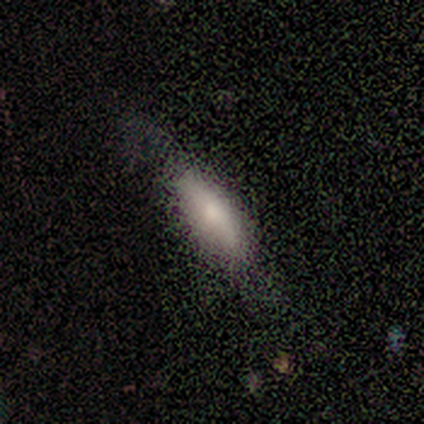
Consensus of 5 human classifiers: smooth 100%, featured or disk 0%, star or artifact 0%. Down the decision tree: how rounded — in between (80%); merging — none (100%).